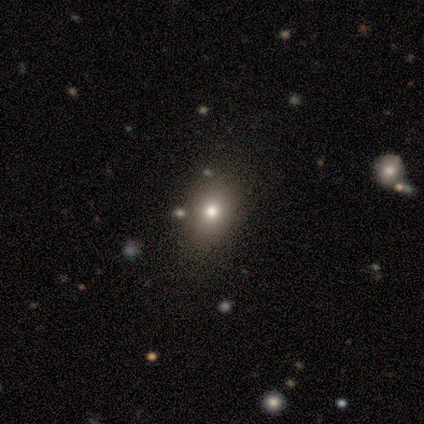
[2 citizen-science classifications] Smooth or featured?
  - smooth: 50% * (tied)
  - star or artifact: 50% * (tied)
  - featured or disk: 0%
How rounded?
  - in between: 100% *
  - round: 0%
  - cigar-shaped: 0%
Merging?
  - none: 100% *
  - minor disturbance: 0%
  - major disturbance: 0%
  - merger: 0%